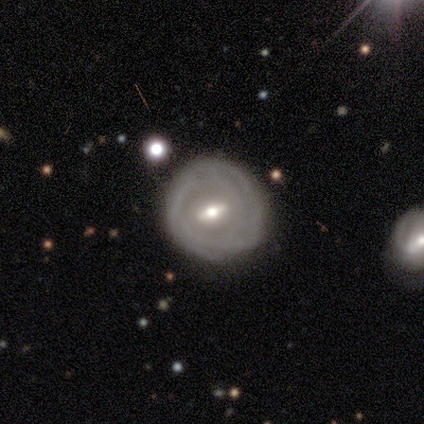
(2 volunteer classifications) Smooth or featured? featured or disk (100%)
Edge-on disk? no (100%)
Bar? strong (50%, tied with weak)
Spiral arms? no (100%)
Bulge size? large (50%, tied with small)
Merging? none (100%)